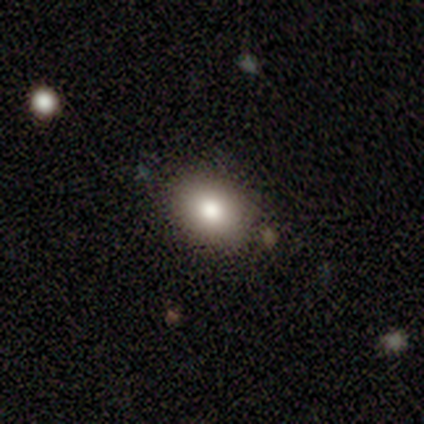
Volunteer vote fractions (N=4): This appears to be a smooth galaxy with no disk features (100%) that is in between round and cigar-shaped (75%). Merging: none (75%).